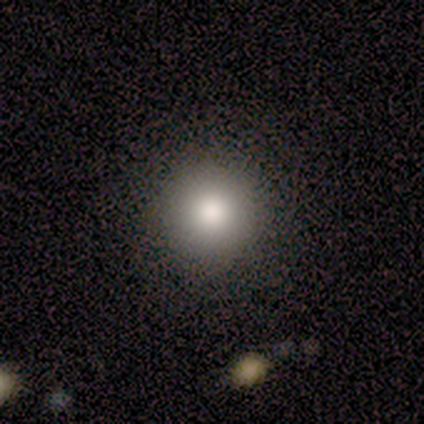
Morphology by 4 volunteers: Smooth or featured?
  - smooth: 50% * (tied)
  - star or artifact: 50% * (tied)
  - featured or disk: 0%
How rounded?
  - round: 100% *
  - in between: 0%
  - cigar-shaped: 0%
Merging?
  - none: 100% *
  - minor disturbance: 0%
  - major disturbance: 0%
  - merger: 0%